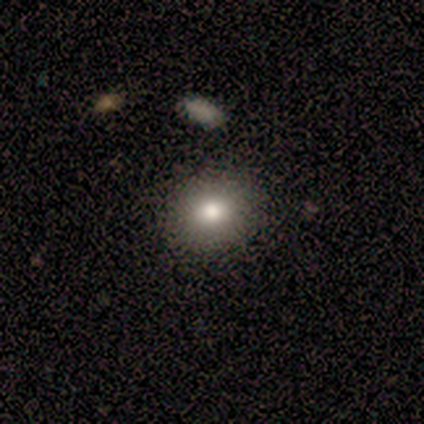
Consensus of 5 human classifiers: smooth_or_featured: smooth (p=0.80) [alt: star or artifact p=0.20]
how_rounded: round (p=1.00)
merging: none (p=1.00)